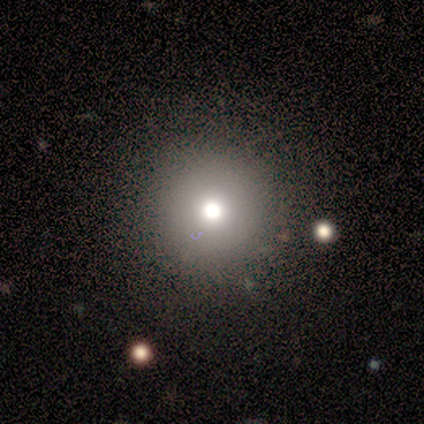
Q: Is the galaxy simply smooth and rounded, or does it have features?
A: star or artifact — 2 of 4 (50%).